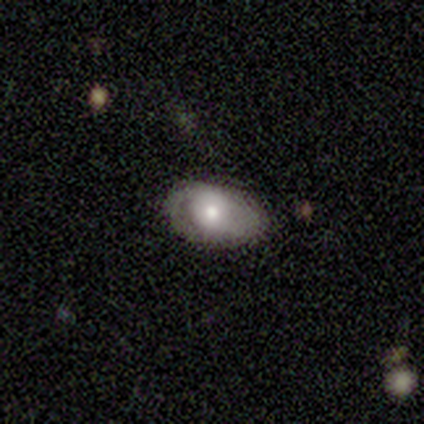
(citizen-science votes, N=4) A featured or disk galaxy (75%) with no bar (100%), no spiral arms (67%) and a moderate central bulge (67%).

Vote fractions:
- Smooth or featured? featured or disk: 75% / smooth: 25% / star or artifact: 0%
- Edge-on disk? no: 100% / yes: 0%
- Bar? no: 100% / strong: 0% / weak: 0%
- Spiral arms? no: 67% / yes: 33%
- Bulge size? moderate: 67% / large: 33% / dominant: 0% / small: 0% / none: 0%
- Merging? none: 75% / minor disturbance: 25% / major disturbance: 0% / merger: 0%